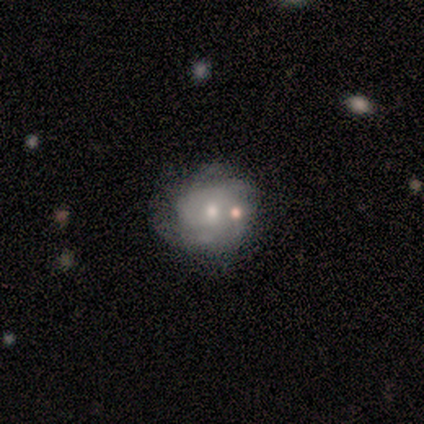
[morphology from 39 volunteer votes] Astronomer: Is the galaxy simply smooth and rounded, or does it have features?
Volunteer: featured or disk — 56% (runner-up: smooth, 33%).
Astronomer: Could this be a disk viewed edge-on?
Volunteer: no — 95%.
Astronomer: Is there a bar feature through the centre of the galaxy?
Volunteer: no — 86%.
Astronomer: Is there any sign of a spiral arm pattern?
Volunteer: yes — 81%.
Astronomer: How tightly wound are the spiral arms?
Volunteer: tight — 59%.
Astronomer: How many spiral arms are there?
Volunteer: can't tell — 35% (runner-up: 4, 29%).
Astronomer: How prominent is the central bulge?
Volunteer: moderate — 57% (runner-up: small, 38%).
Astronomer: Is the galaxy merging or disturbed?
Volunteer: none — 57%.